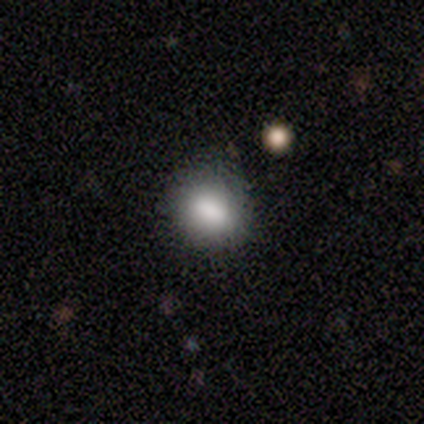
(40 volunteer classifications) A smooth galaxy with no disk features (88%) that is round (66%). Merging: none (74%).